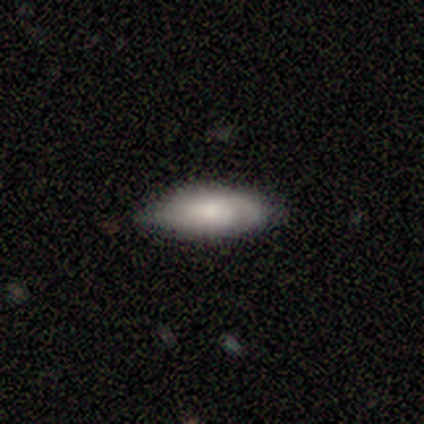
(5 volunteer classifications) smooth-or-featured: smooth: 100% | featured or disk: 0% | star or artifact: 0%
  how-rounded: in between: 60% | cigar-shaped: 40% | round: 0%
  merging: none: 60% | minor disturbance: 40% | major disturbance: 0% | merger: 0%